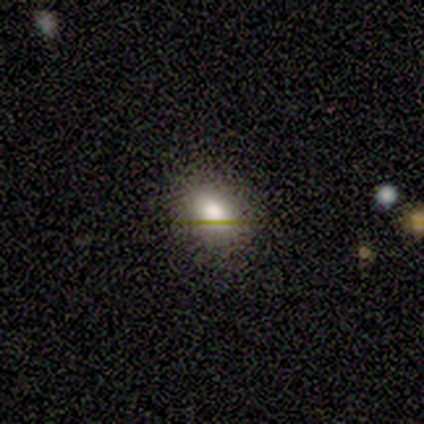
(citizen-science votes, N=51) Q: Smooth or featured?
A: smooth (78%); runner-up: featured or disk (14%)
Q: How rounded?
A: in between (68%); runner-up: round (32%)
Q: Merging?
A: none (85%); runner-up: minor disturbance (13%)